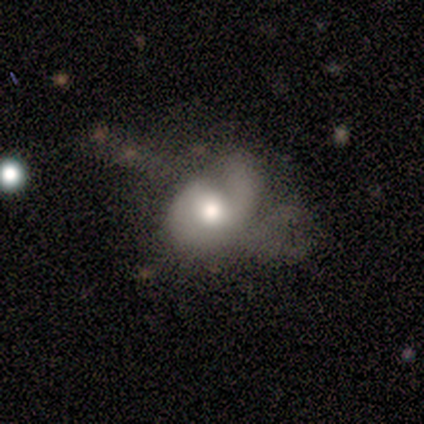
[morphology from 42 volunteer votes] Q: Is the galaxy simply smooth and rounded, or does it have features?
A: featured or disk — 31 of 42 (74%).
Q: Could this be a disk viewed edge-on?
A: no — 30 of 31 (97%).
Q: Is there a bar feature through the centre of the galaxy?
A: no — 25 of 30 (83%).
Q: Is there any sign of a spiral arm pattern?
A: yes — 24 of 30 (80%).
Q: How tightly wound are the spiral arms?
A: medium — 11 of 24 (46%).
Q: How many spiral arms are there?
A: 2 — 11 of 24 (46%).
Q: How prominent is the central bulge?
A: moderate — 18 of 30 (60%).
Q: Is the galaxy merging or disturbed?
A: major disturbance — 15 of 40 (38%).